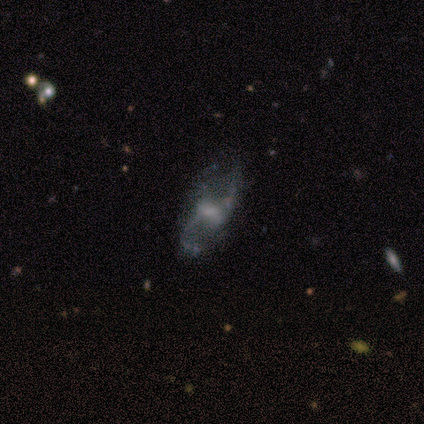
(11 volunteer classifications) A featured or disk galaxy (73%) with a strong bar (33%, tied with weak and no), 2 (100%) loose (80%) spiral arms (83%) and a moderate central bulge (33%, tied with none). Merging: none (40%, tied with minor disturbance).